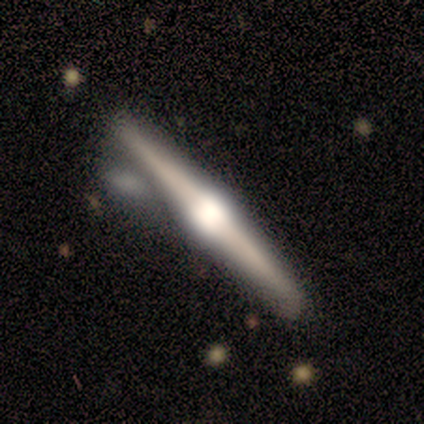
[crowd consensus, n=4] A featured or disk galaxy (100%) viewed edge-on (100%) with a rounded central bulge (100%). Merging: none (75%).